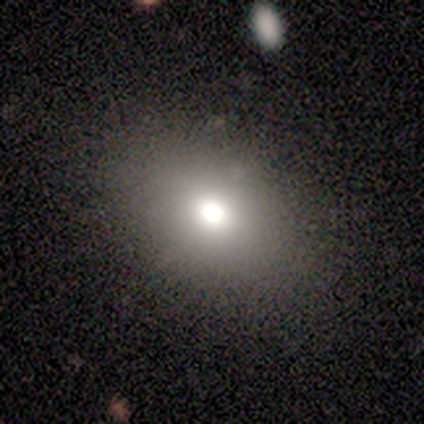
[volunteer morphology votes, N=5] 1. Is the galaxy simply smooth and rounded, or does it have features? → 80% smooth, 20% star or artifact, 0% featured or disk.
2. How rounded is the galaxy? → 75% in between, 25% round, 0% cigar-shaped.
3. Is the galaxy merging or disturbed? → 100% none, 0% minor disturbance, 0% major disturbance, 0% merger.